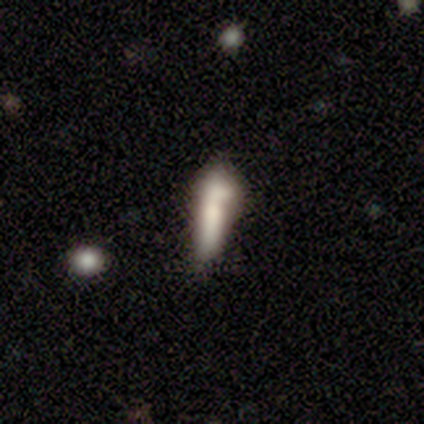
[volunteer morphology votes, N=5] Smooth or featured?
  - smooth: 60% *
  - featured or disk: 40%
  - star or artifact: 0%
How rounded?
  - cigar-shaped: 67% *
  - in between: 33%
  - round: 0%
Merging?
  - none: 40% * (tied)
  - minor disturbance: 40% * (tied)
  - merger: 20%
  - major disturbance: 0%